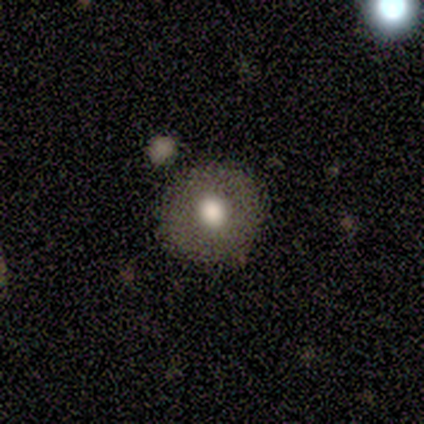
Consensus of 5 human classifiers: A star or artifact, not a galaxy (60%).